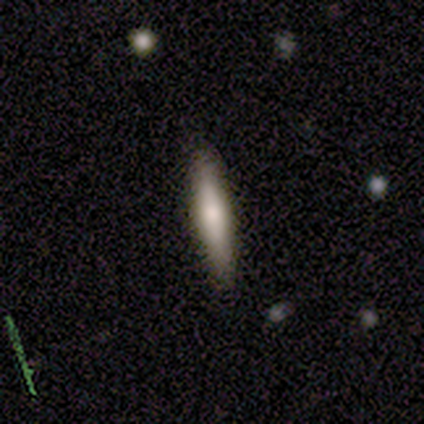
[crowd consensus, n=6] Smooth or featured? smooth (67%)
How rounded? cigar-shaped (75%)
Merging? none (100%)